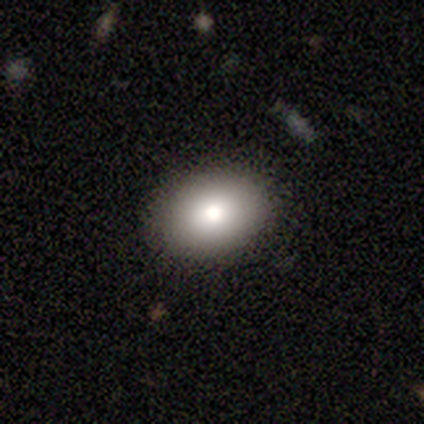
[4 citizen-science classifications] Q: Smooth or featured?
A: smooth (100%)
Q: How rounded?
A: in between (75%); runner-up: round (25%)
Q: Merging?
A: none (100%)